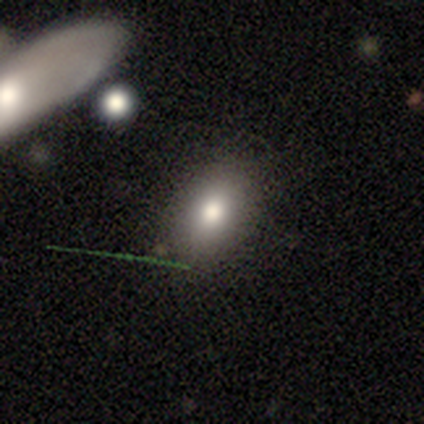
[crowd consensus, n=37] Volunteers were most divided on "how rounded": in between: 70%, round: 26%, cigar-shaped: 4%. More confident: merging — none (77%); smooth or featured — smooth (73%).